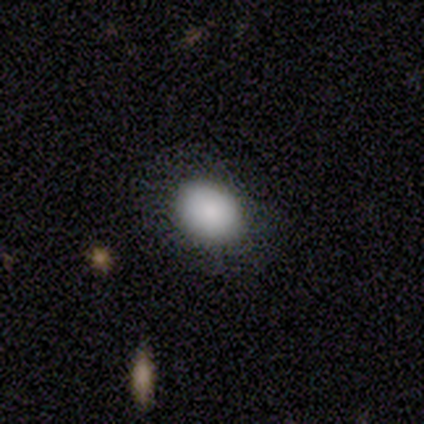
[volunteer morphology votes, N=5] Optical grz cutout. It shows a smooth galaxy with no disk features (100%) that is in between round and cigar-shaped (60%). Merging: none (60%).